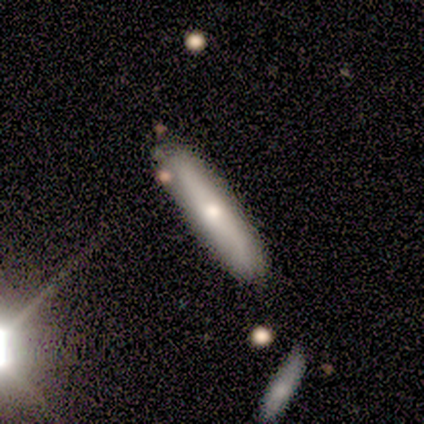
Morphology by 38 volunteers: Smooth or featured: smooth — 71% (featured or disk — 29%)
How rounded: cigar-shaped — 100%
Merging: none — 84% (minor disturbance — 13%)